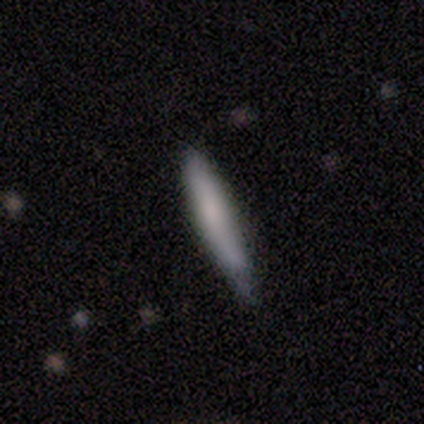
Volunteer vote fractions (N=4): smooth-or-featured: smooth: 75% | star or artifact: 25% | featured or disk: 0%
  how-rounded: cigar-shaped: 100% | round: 0% | in between: 0%
  merging: minor disturbance: 67% | none: 33% | major disturbance: 0% | merger: 0%